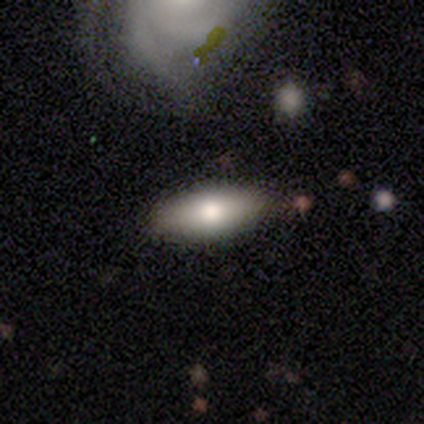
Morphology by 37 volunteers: Overall: smooth (78%). How rounded: in between (83%). Merging: none (80%).